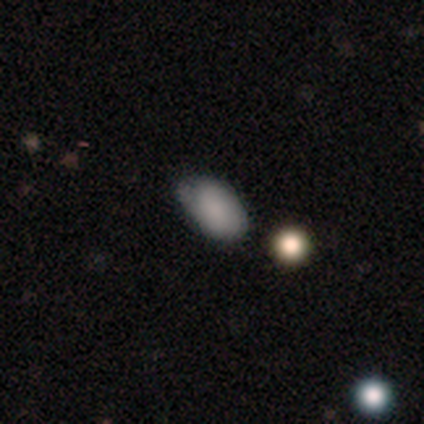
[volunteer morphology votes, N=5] Smooth or featured? smooth (80%)
How rounded? in between (100%)
Merging? none (100%)